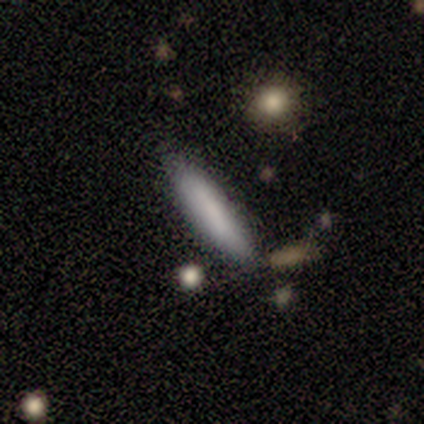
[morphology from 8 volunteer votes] Volunteers were most divided on "merging" (2-way tie): none: 43%, minor disturbance: 43%, merger: 14%, major disturbance: 0%. More confident: how rounded — cigar-shaped (100%); smooth or featured — smooth (62%).